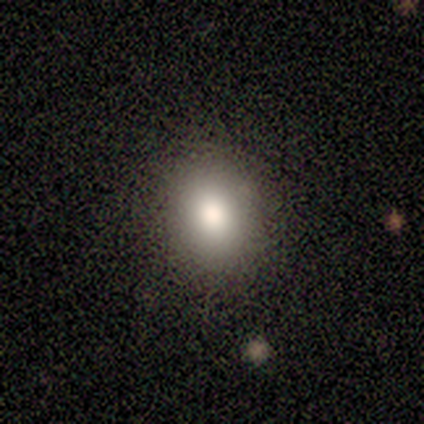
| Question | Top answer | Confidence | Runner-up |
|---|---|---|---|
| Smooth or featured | featured or disk | 60% | smooth (40%) |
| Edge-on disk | no | 100% | — |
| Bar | no | 100% | — |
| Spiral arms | no | 100% | — |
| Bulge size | moderate | 67% | large (33%) |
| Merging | none | 100% | — |